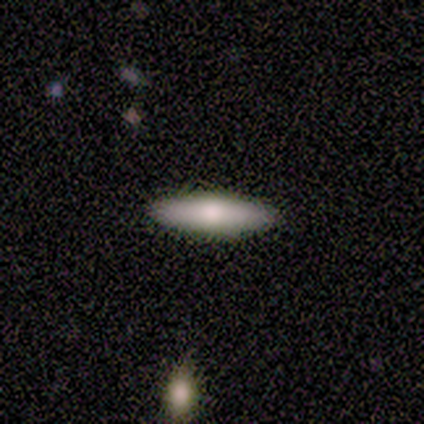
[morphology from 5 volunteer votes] This is clearly a smooth galaxy (80%). How rounded: clearly cigar-shaped (100%). Merging: clearly none (100%).